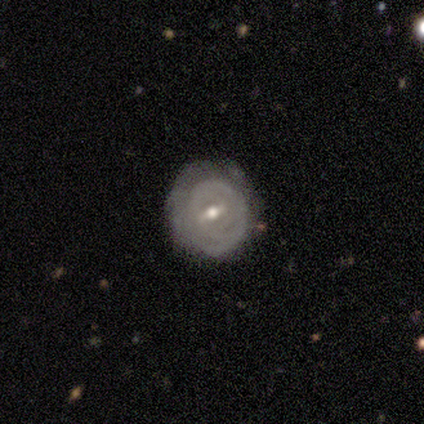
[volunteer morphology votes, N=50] This appears to be a featured or disk galaxy (72%) with a weak bar (80%), tight (86%) spiral arms (60%) and a moderate central bulge (71%). Merging: none (70%).